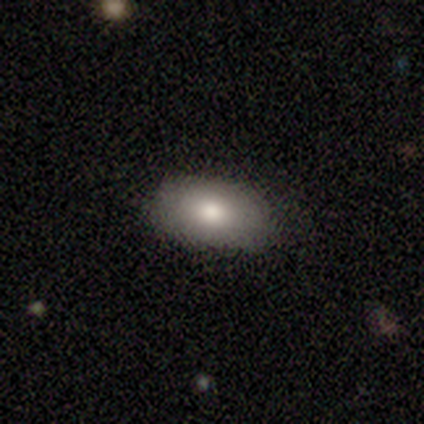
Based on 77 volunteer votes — Smooth or featured?
  - smooth: 74% *
  - featured or disk: 17%
  - star or artifact: 9%
How rounded?
  - in between: 98% *
  - cigar-shaped: 2%
  - round: 0%
Merging?
  - none: 41% *
  - minor disturbance: 11%
  - merger: 1%
  - major disturbance: 0%